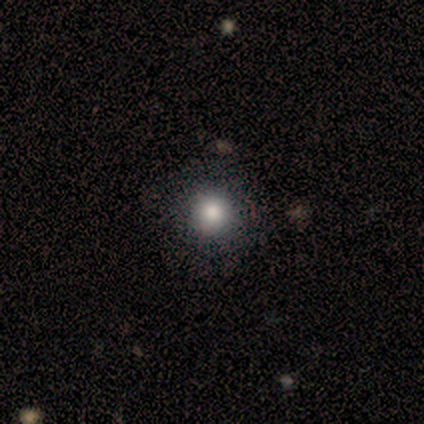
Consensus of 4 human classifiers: This is likely a smooth galaxy (75%). How rounded: clearly round (100%). Merging: clearly none (100%).